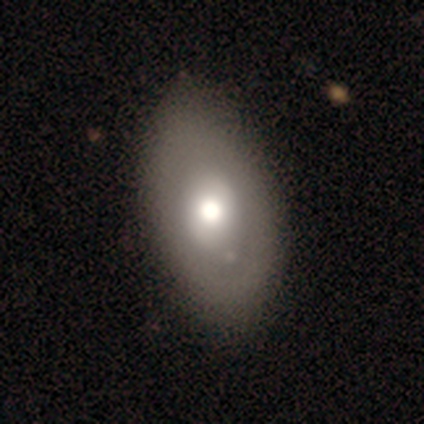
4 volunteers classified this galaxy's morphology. This is possibly a smooth galaxy (50%, tied with featured or disk). How rounded: clearly in between (100%). Merging: likely minor disturbance (75%).